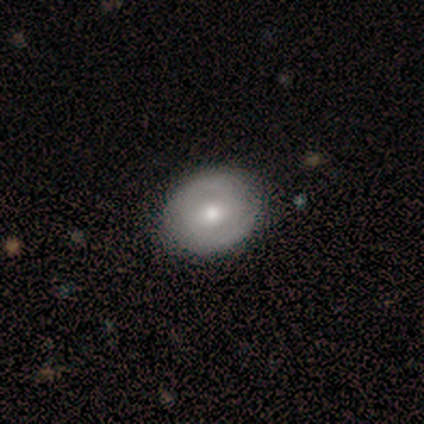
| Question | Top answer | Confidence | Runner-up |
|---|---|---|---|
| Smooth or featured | featured or disk | 50% | smooth (38%) |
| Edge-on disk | no | 100% | — |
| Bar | weak | 50% | tied: no (50%) |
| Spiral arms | yes | 100% | — |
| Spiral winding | medium | 75% | tight (25%) |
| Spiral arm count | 2 | 50% | tied: can't tell (50%) |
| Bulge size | moderate | 75% | small (25%) |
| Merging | none | 100% | — |